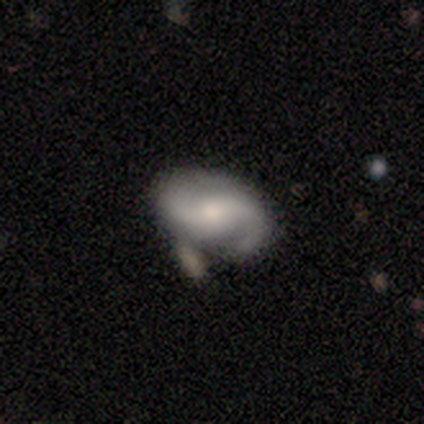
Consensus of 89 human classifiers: A featured or disk galaxy (91%) with no bar (54%), 2 (89%) medium (43%) spiral arms (97%) and a moderate central bulge (51%). Merging: none (66%).